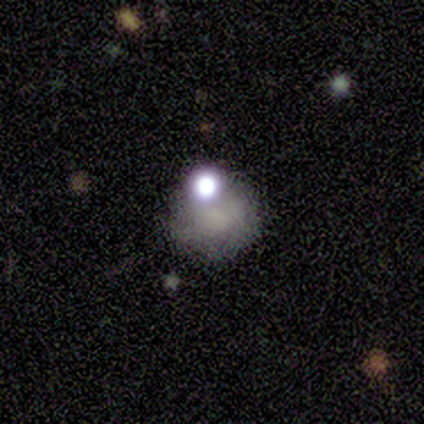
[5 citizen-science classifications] smooth_or_featured: smooth (p=0.60) [alt: star or artifact p=0.40]
how_rounded: round (p=0.67) [alt: in between p=0.33]
merging: none (p=1.00)